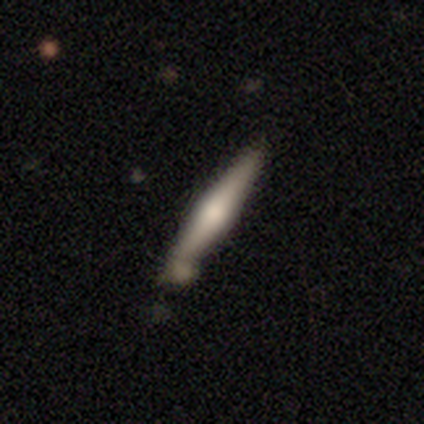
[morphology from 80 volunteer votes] Q: Smooth or featured?
A: smooth (51%); runner-up: featured or disk (45%)
Q: How rounded?
A: cigar-shaped (95%); runner-up: round (2%)
Q: Merging?
A: none (66%); runner-up: minor disturbance (19%)